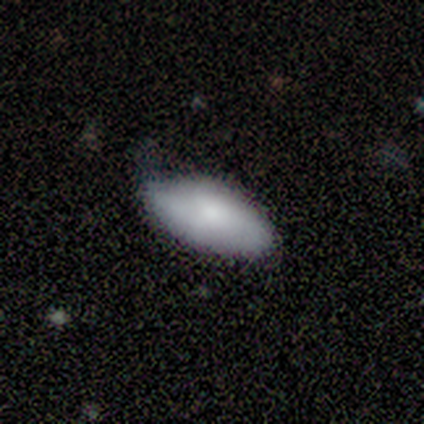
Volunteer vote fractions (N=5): Q: Smooth or featured?
A: smooth (100%)
Q: How rounded?
A: in between (80%); runner-up: cigar-shaped (20%)
Q: Merging?
A: minor disturbance (60%); runner-up: none (40%)